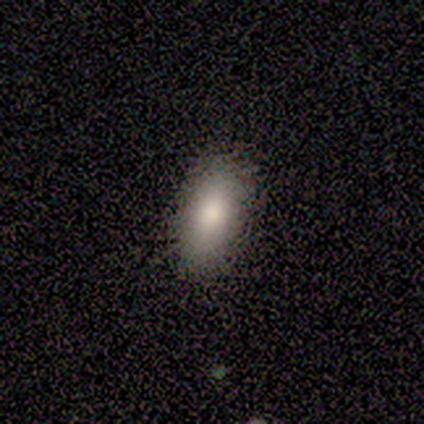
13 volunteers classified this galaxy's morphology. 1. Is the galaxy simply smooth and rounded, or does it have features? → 85% smooth, 15% featured or disk, 0% star or artifact.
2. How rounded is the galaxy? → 82% in between, 9% round, 9% cigar-shaped.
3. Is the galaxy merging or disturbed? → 85% none, 15% merger, 0% minor disturbance, 0% major disturbance.